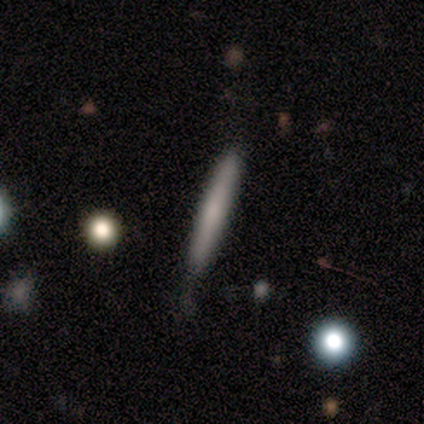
A smooth galaxy with no disk features (75%) that is cigar-shaped (100%). Merging: none (75%).